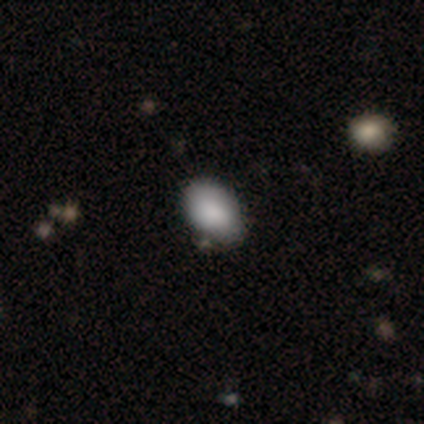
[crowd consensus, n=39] A smooth galaxy with no disk features (90%) that is in between round and cigar-shaped (86%). Merging: none (60%).